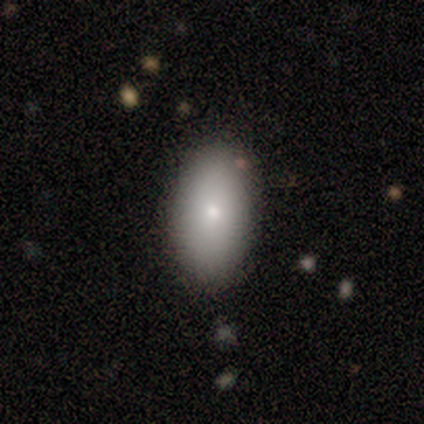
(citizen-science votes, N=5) A smooth galaxy with no disk features (80%) that is in between round and cigar-shaped (75%). Merging: none (80%).